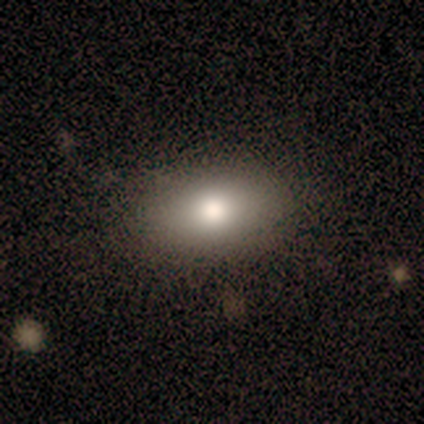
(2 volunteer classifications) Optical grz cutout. It shows a smooth galaxy with no disk features (100%) that is in between round and cigar-shaped (100%). Merging: none (100%).